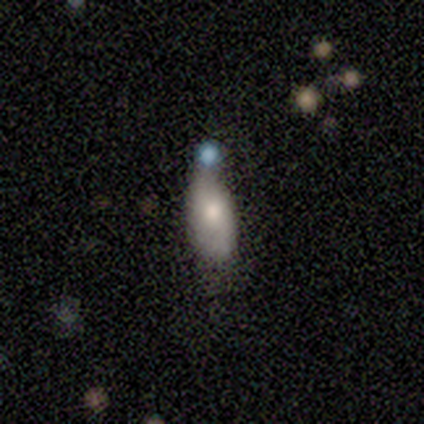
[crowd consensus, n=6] A smooth galaxy with no disk features (67%) that is in between round and cigar-shaped (75%).

Vote fractions:
- Smooth or featured? smooth: 67% / featured or disk: 17% / star or artifact: 17%
- How rounded? in between: 75% / cigar-shaped: 25% / round: 0%
- Merging? none: 40% (tied) / minor disturbance: 40% (tied) / merger: 20% / major disturbance: 0%